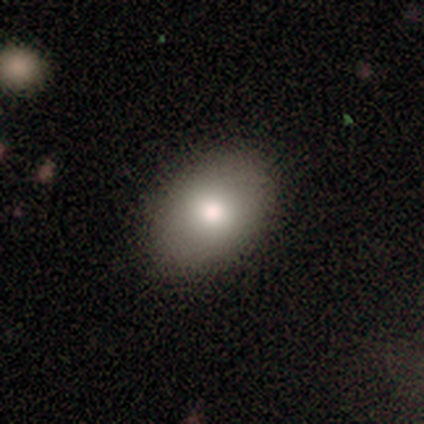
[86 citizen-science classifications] Smooth or featured? 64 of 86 (74%) said smooth. How rounded? 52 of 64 (81%) said in between. Merging? 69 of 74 (93%) said none.